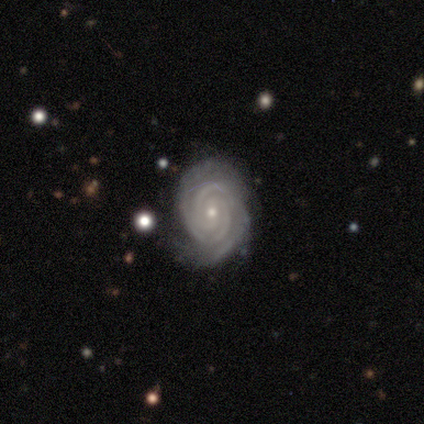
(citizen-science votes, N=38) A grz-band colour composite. It shows a featured or disk galaxy (92%) with no bar (66%), 2 (31%) tight (89%) spiral arms (100%) and a small central bulge (89%). Merging: none (73%).